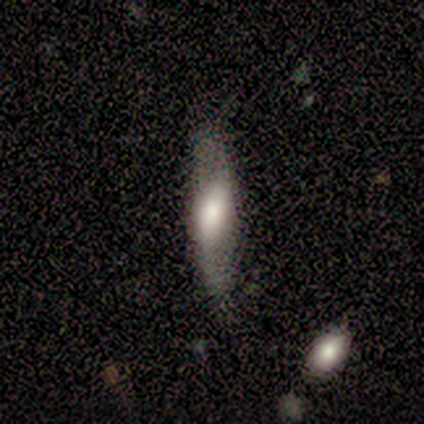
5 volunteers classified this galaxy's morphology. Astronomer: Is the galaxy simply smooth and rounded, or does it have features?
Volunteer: featured or disk — 80%.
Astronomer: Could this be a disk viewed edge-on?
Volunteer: yes — 75%.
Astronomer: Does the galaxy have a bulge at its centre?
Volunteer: rounded — 67%.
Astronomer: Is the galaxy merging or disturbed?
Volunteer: none — 100%.